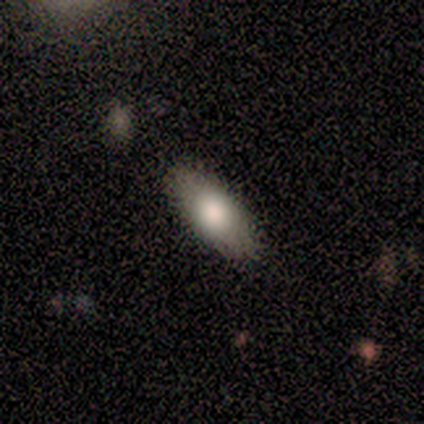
Smooth or featured: smooth — 60% (featured or disk — 40%)
How rounded: in between — 100%
Merging: none — 80% (minor disturbance — 20%)